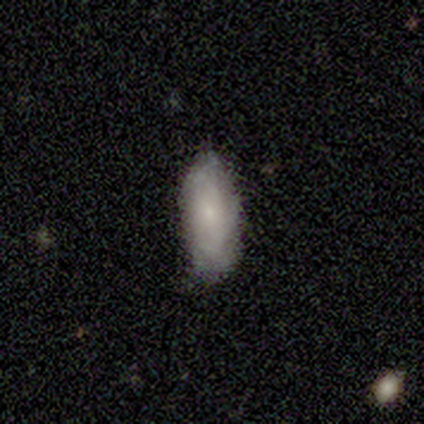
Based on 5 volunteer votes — This is clearly a smooth galaxy (80%). How rounded: likely in between (75%). Merging: likely none (60%).